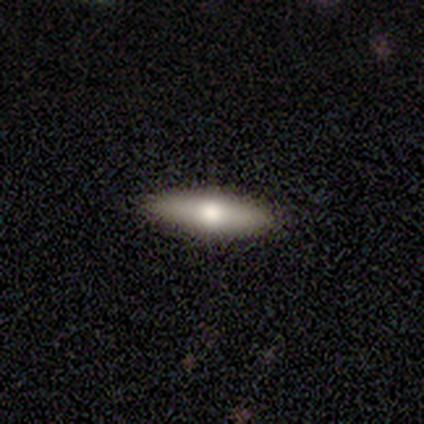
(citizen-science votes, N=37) smooth-or-featured: smooth: 65% | featured or disk: 35% | star or artifact: 0%
  how-rounded: cigar-shaped: 54% | in between: 46% | round: 0%
  merging: none: 92% | major disturbance: 5% | minor disturbance: 3% | merger: 0%